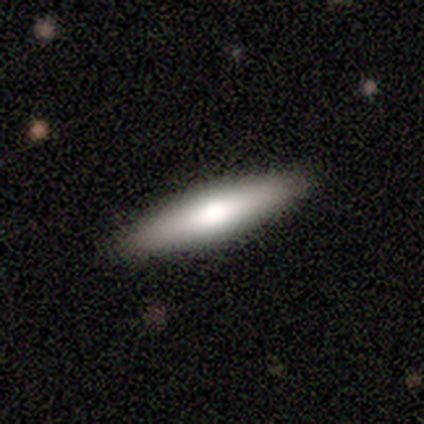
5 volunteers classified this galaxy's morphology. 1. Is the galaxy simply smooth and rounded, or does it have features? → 80% smooth, 20% featured or disk, 0% star or artifact.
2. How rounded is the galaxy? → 75% cigar-shaped, 25% in between, 0% round.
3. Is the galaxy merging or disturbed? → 100% none, 0% minor disturbance, 0% major disturbance, 0% merger.